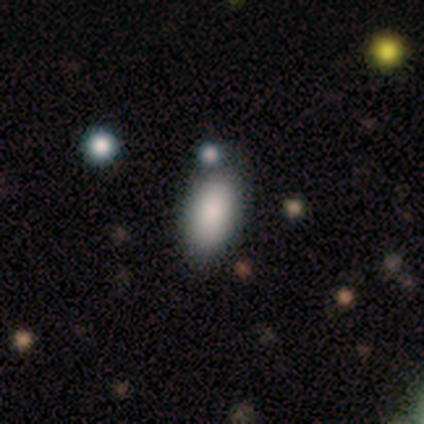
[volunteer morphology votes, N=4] This is clearly a smooth galaxy (100%). How rounded: clearly in between (100%). Merging: clearly none (100%).